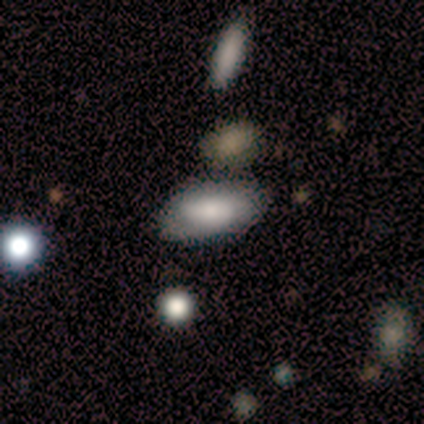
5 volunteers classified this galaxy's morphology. This is clearly a smooth galaxy (100%). How rounded: clearly in between (80%). Merging: likely none (60%).